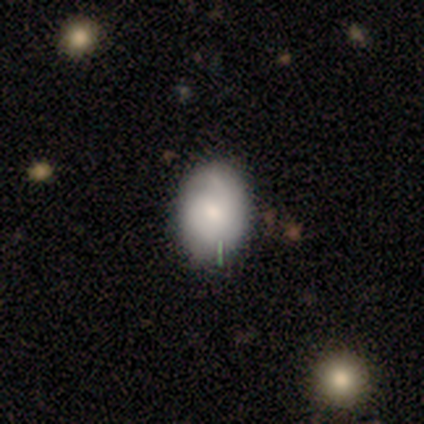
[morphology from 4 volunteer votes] A smooth galaxy with no disk features (50%, tied with featured or disk) that is in between round and cigar-shaped (100%).

Vote fractions:
- Smooth or featured? smooth: 50% (tied) / featured or disk: 50% (tied) / star or artifact: 0%
- How rounded? in between: 100% / round: 0% / cigar-shaped: 0%
- Merging? none: 50% (tied) / minor disturbance: 50% (tied) / major disturbance: 0% / merger: 0%